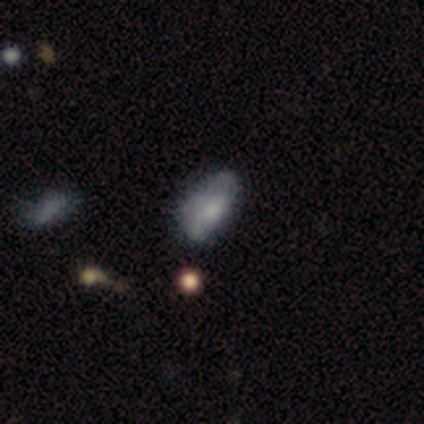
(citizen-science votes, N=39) Smooth or featured?
  - smooth: 62% *
  - featured or disk: 26%
  - star or artifact: 13%
How rounded?
  - in between: 88% *
  - cigar-shaped: 8%
  - round: 4%
Merging?
  - none: 50% *
  - minor disturbance: 26%
  - major disturbance: 15%
  - merger: 9%